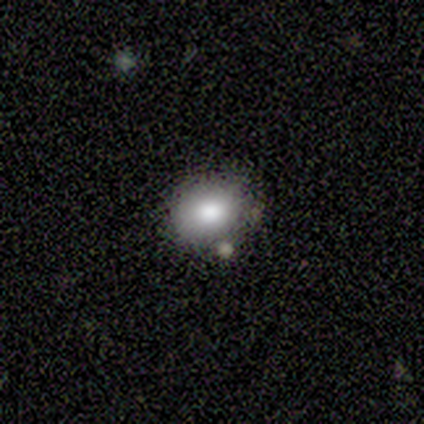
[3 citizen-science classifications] This appears to be a smooth galaxy with no disk features (67%) that is round (50%, tied with in between). Merging: none (100%).